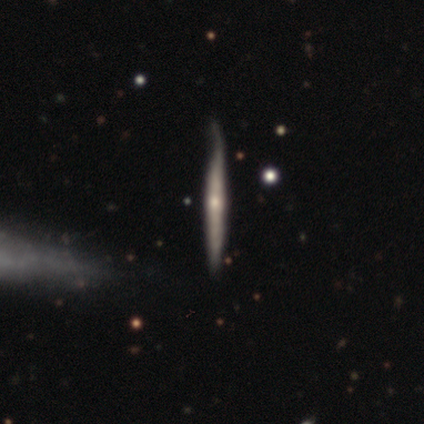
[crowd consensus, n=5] A smooth galaxy with no disk features (60%) that is cigar-shaped (100%). Merging: none (60%).